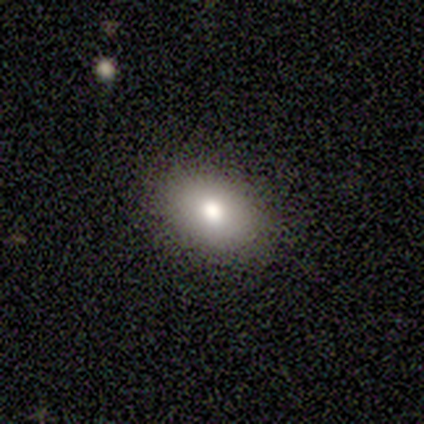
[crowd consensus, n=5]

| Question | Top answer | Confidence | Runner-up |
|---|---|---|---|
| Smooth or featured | smooth | 100% | — |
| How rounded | in between | 80% | round (20%) |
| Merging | none | 80% | minor disturbance (20%) |